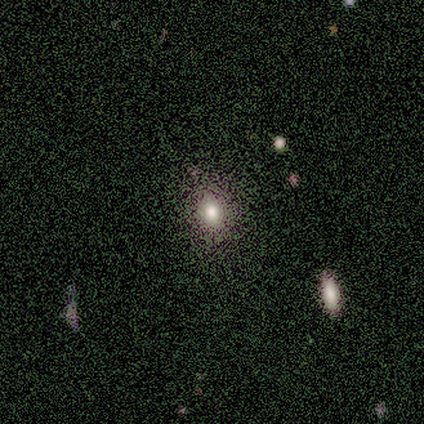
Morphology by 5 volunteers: This appears to be a smooth galaxy with no disk features (100%) that is round (60%). Merging: none (80%).